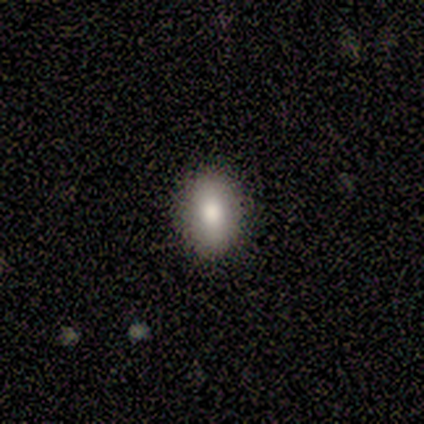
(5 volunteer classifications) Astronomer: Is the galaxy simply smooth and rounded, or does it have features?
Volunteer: smooth — 80%.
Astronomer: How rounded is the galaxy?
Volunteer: in between — 75%.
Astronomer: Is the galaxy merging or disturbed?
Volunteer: none — 80%.